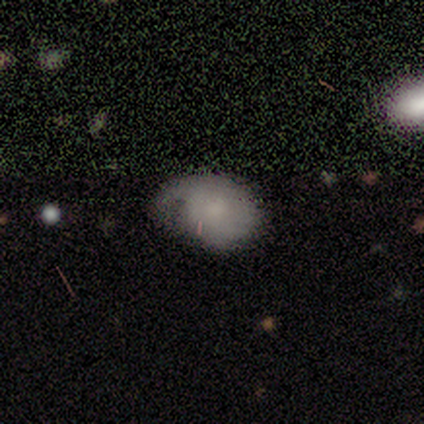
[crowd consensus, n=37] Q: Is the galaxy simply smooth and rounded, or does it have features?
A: smooth — 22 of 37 (59%).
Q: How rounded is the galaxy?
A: in between — 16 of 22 (73%).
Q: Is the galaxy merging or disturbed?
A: none — 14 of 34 (41%).